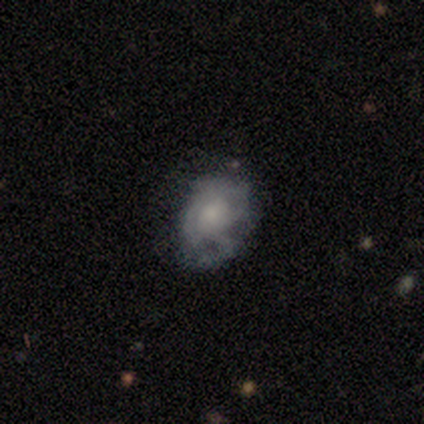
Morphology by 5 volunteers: Volunteers were most divided on "how rounded" (2-way tie): round: 50%, in between: 50%, cigar-shaped: 0%. More confident: smooth or featured — smooth (80%); merging — none (60%).